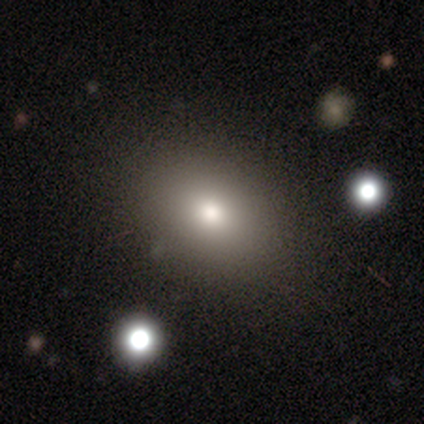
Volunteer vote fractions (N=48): Morphology: type=smooth (73%); roundness=in between (60%); merging=none (86%).